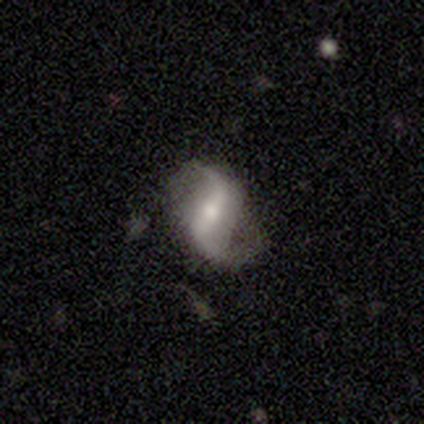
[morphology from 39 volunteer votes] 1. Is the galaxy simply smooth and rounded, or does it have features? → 92% featured or disk, 5% smooth, 3% star or artifact.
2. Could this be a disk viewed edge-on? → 97% no, 3% yes.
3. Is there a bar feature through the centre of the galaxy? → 46% strong, 31% weak, 23% no.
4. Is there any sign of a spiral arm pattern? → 94% yes, 6% no.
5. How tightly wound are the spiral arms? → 85% loose, 15% medium, 0% tight.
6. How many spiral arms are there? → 100% 2, 0% 1, 0% 3, 0% 4, 0% more than 4, 0% can't tell.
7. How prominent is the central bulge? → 60% moderate, 37% small, 3% large, 0% dominant, 0% none.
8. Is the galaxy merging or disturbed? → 74% none, 21% minor disturbance, 5% major disturbance, 0% merger.